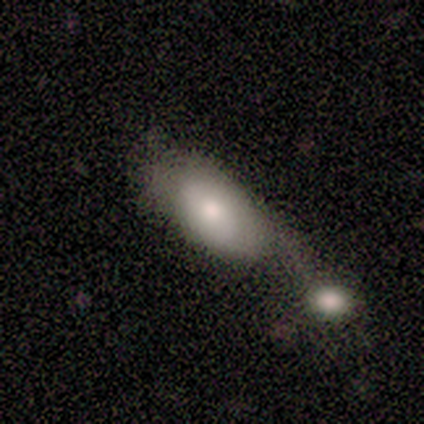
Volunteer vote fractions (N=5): smooth_or_featured: featured or disk (p=0.60) [alt: smooth p=0.40]
disk_edge_on: no (p=1.00)
bar: no (p=0.67) [alt: weak p=0.33]
has_spiral_arms: no (p=1.00)
bulge_size: moderate (p=0.67) [alt: small p=0.33]
merging: merger (p=0.60) [alt: minor disturbance p=0.40]